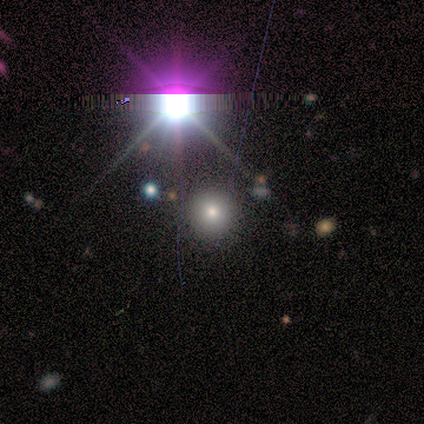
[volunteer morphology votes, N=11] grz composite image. It shows a smooth galaxy with no disk features (55%) that is round (100%). Merging: none (86%).